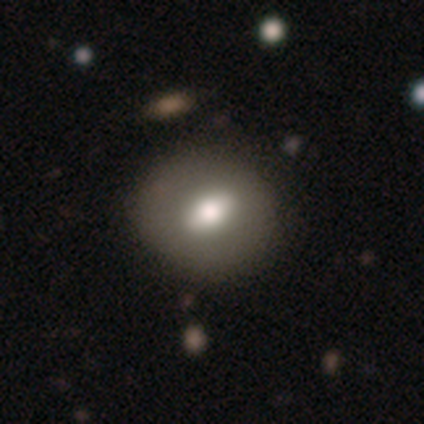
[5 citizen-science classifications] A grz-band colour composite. It shows a smooth galaxy with no disk features (80%) that is round (100%). Merging: none (100%).